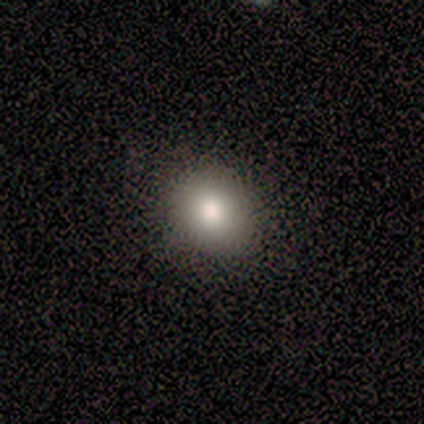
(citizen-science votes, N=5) Smooth or featured? smooth (60%)
How rounded? round (67%)
Merging? none (100%)